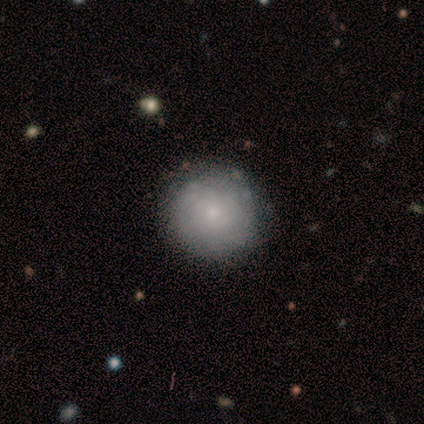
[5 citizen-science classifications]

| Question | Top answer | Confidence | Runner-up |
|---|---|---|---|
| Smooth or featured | smooth | 80% | featured or disk (20%) |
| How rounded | round | 100% | — |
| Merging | none | 100% | — |